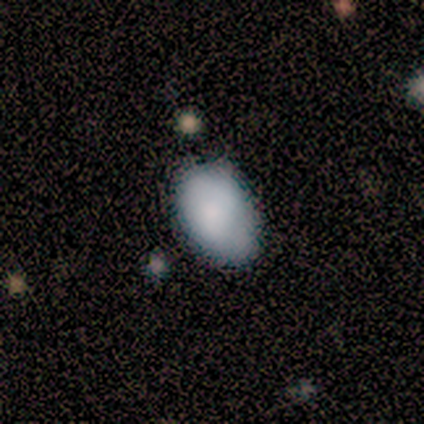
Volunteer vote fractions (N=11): Overall: smooth (91%). How rounded: in between (100%). Merging: none (64%; minor disturbance 36%).